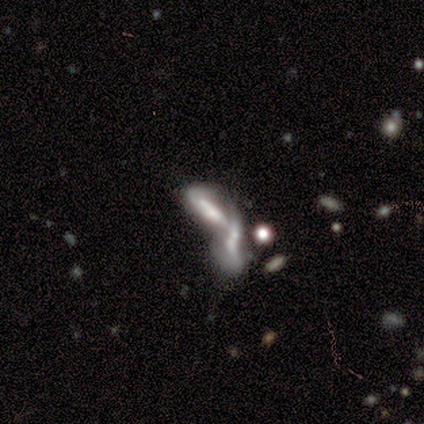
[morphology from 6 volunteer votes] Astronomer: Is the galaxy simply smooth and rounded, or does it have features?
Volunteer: smooth — 50%, tied with featured or disk at 50%.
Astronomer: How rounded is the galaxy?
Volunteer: in between — 67%.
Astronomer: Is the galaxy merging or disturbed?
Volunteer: merger — 83%.